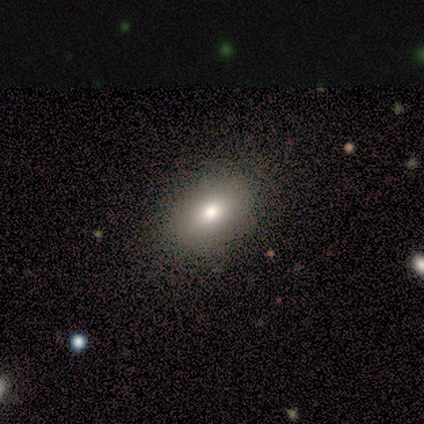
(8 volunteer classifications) Smooth or featured?
  - smooth: 62% *
  - star or artifact: 38%
  - featured or disk: 0%
How rounded?
  - in between: 80% *
  - round: 20%
  - cigar-shaped: 0%
Merging?
  - none: 100% *
  - minor disturbance: 0%
  - major disturbance: 0%
  - merger: 0%